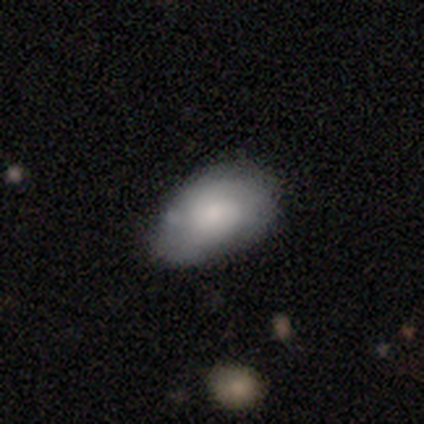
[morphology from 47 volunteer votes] type=smooth (83%); roundness=in between (87%); merging=none (59%).